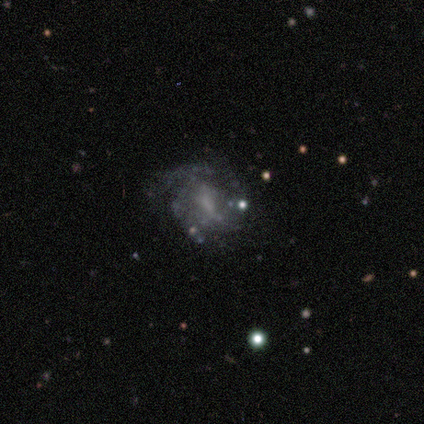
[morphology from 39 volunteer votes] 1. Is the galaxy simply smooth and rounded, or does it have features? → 72% featured or disk, 15% star or artifact, 13% smooth.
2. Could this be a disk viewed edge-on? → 100% no, 0% yes.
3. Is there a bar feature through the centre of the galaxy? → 50% no, 36% weak, 14% strong.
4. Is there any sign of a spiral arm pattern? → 54% yes, 46% no.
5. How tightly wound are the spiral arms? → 40% tight (tied), 40% medium (tied), 20% loose.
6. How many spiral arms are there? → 40% can't tell, 33% 3, 27% 2, 0% 1, 0% 4, 0% more than 4.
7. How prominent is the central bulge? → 46% none, 29% moderate, 25% small, 0% dominant, 0% large.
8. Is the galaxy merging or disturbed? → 48% none, 36% minor disturbance, 12% major disturbance, 3% merger.